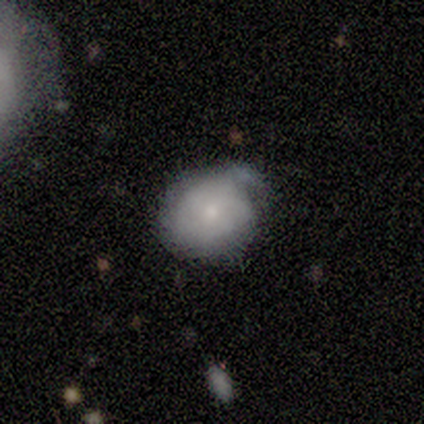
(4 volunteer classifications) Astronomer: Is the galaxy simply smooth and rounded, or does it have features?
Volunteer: smooth — 75%.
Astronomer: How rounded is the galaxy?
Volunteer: in between — 67%.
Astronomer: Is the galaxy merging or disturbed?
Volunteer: none — 50%.